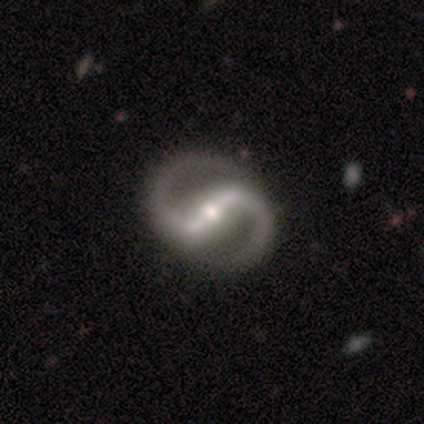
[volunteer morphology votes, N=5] Smooth or featured?
  - featured or disk: 100% *
  - smooth: 0%
  - star or artifact: 0%
Edge-on disk?
  - no: 100% *
  - yes: 0%
Bar?
  - strong: 100% *
  - weak: 0%
  - no: 0%
Spiral arms?
  - yes: 100% *
  - no: 0%
Spiral winding?
  - tight: 40% * (tied)
  - medium: 40% * (tied)
  - loose: 20%
Spiral arm count?
  - 2: 100% *
  - 1: 0%
  - 3: 0%
  - 4: 0%
  - more than 4: 0%
  - can't tell: 0%
Bulge size?
  - moderate: 80% *
  - small: 20%
  - dominant: 0%
  - large: 0%
  - none: 0%
Merging?
  - none: 100% *
  - minor disturbance: 0%
  - major disturbance: 0%
  - merger: 0%